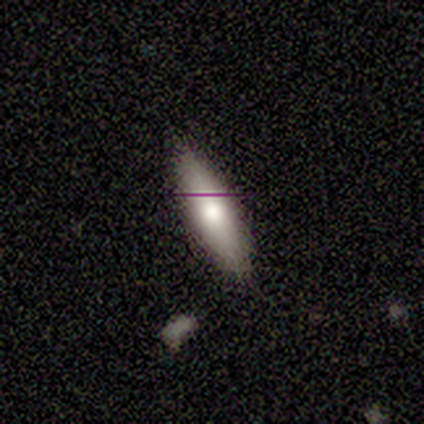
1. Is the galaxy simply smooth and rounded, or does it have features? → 80% smooth, 20% featured or disk, 0% star or artifact.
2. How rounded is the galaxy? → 75% cigar-shaped, 25% in between, 0% round.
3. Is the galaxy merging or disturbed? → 100% none, 0% minor disturbance, 0% major disturbance, 0% merger.